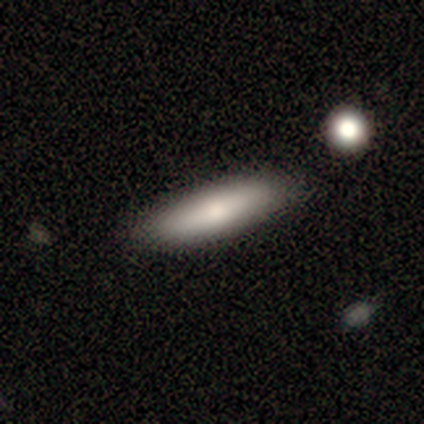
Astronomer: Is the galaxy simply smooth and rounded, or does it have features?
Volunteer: smooth — 68%.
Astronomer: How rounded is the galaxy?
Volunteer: cigar-shaped — 80%.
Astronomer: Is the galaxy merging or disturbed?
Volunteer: none — 86%.